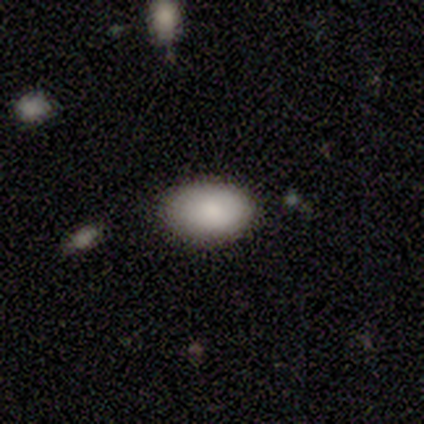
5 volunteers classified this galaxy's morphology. Volunteers were most divided on "merging": none: 80%, minor disturbance: 20%, major disturbance: 0%, merger: 0%. More confident: smooth or featured — smooth (100%); how rounded — in between (100%).